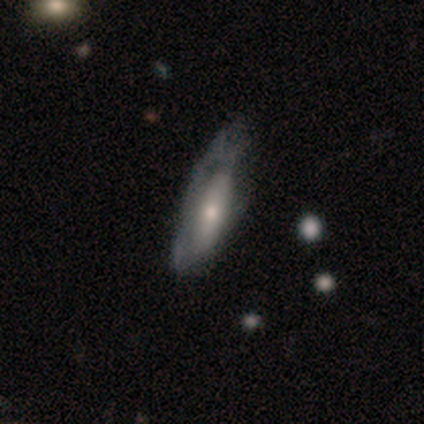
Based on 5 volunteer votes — A featured or disk galaxy (60%) with no bar (100%), no spiral arms (67%) and a moderate central bulge (67%). Merging: major disturbance (60%).